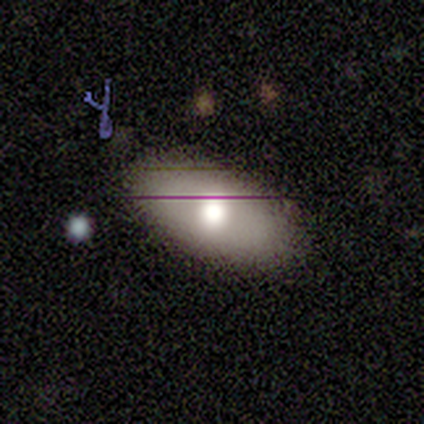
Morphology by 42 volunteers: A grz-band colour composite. It shows a smooth galaxy with no disk features (67%) that is in between round and cigar-shaped (93%). Merging: none (82%).